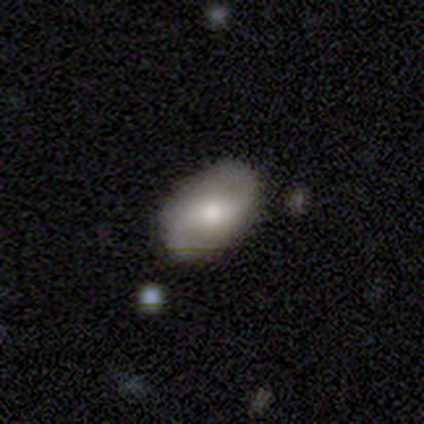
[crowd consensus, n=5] smooth-or-featured: featured or disk: 60% | smooth: 20% | star or artifact: 20%
  disk-edge-on: no: 100% | yes: 0%
    bar: strong: 33% (tied) | weak: 33% (tied) | no: 33% (tied)
    has-spiral-arms: yes: 67% | no: 33%
      spiral-winding: medium: 50% (tied) | loose: 50% (tied) | tight: 0%
      spiral-arm-count: 2: 100% | 1: 0% | 3: 0% | 4: 0% | more than 4: 0% | can't tell: 0%
    bulge-size: small: 67% | none: 33% | dominant: 0% | large: 0% | moderate: 0%
  merging: none: 100% | minor disturbance: 0% | major disturbance: 0% | merger: 0%